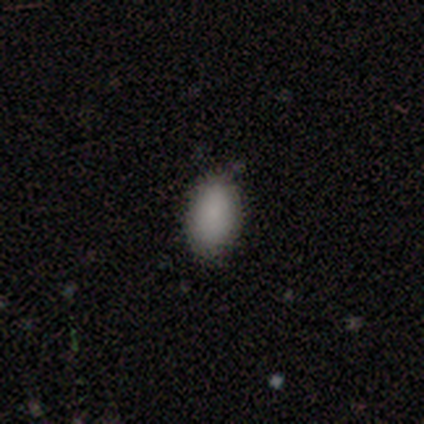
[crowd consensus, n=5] A smooth galaxy with no disk features (100%) that is in between round and cigar-shaped (80%). Merging: none (80%).